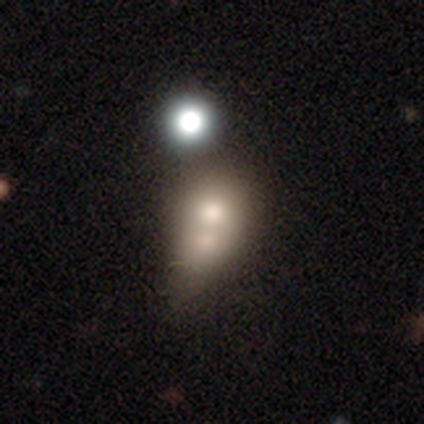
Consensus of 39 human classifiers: smooth_or_featured: smooth (p=0.56) [alt: star or artifact p=0.23]
how_rounded: round (p=0.55) [alt: in between p=0.41]
merging: merger (p=0.77) [alt: none p=0.10]